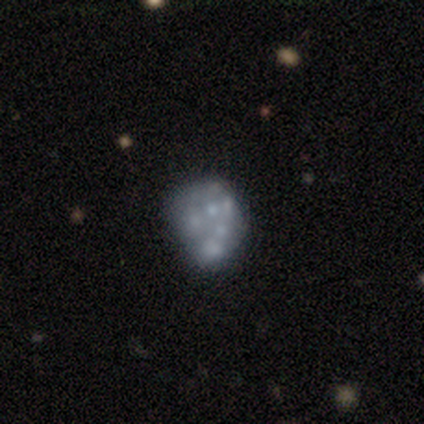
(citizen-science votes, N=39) Smooth or featured?
  - featured or disk: 74% *
  - smooth: 18%
  - star or artifact: 8%
Edge-on disk?
  - no: 100% *
  - yes: 0%
Bar?
  - no: 97% *
  - weak: 3%
  - strong: 0%
Spiral arms?
  - no: 97% *
  - yes: 3%
Bulge size?
  - none: 76% *
  - small: 21%
  - moderate: 3%
  - dominant: 0%
  - large: 0%
Merging?
  - none: 61% *
  - minor disturbance: 22%
  - major disturbance: 8%
  - merger: 8%